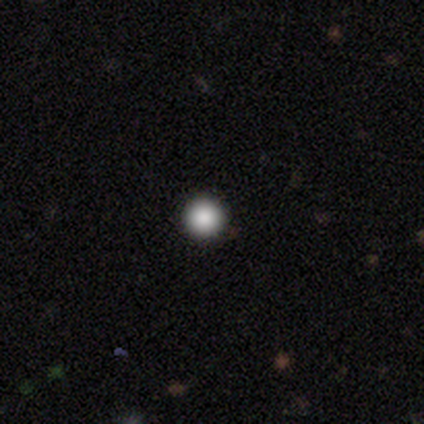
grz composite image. It shows a smooth galaxy with no disk features (75%) that is round (100%). Merging: none (100%).